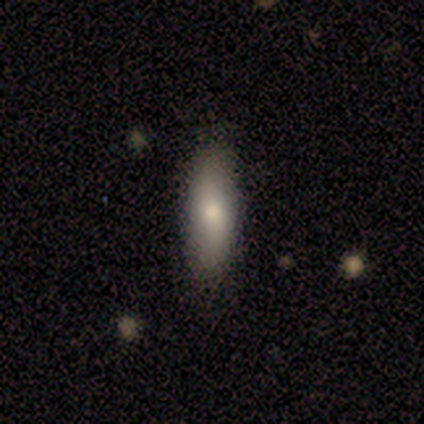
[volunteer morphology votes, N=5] Smooth or featured: smooth — 60% (featured or disk — 20%)
How rounded: in between — 67% (cigar-shaped — 33%)
Merging: none — 75% (merger — 25%)